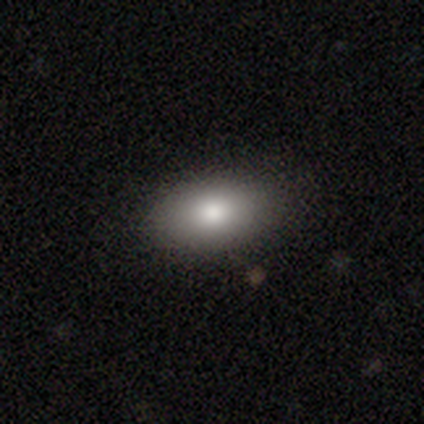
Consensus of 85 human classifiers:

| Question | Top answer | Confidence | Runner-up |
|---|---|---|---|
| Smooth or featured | smooth | 84% | featured or disk (12%) |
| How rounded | in between | 94% | round (4%) |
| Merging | none | 89% | minor disturbance (7%) |